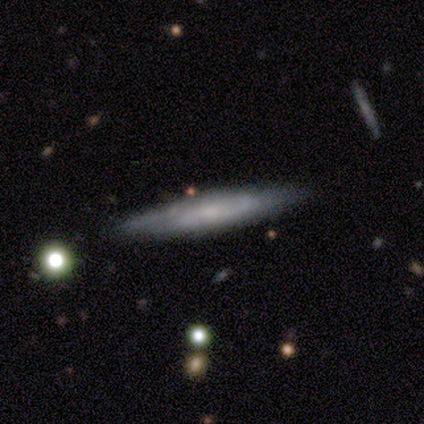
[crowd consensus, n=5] A featured or disk galaxy (80%) viewed edge-on (50%, tied with no) with a boxy central bulge (50%, tied with rounded). Merging: none (60%).